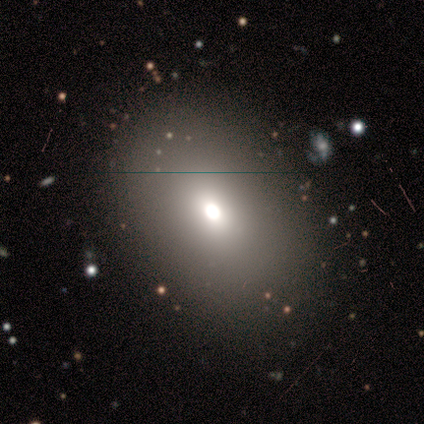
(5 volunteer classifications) Volunteers were most divided on "merging": minor disturbance: 50%, none: 25%, major disturbance: 25%, merger: 0%. More confident: smooth or featured — smooth (80%); how rounded — in between (75%).